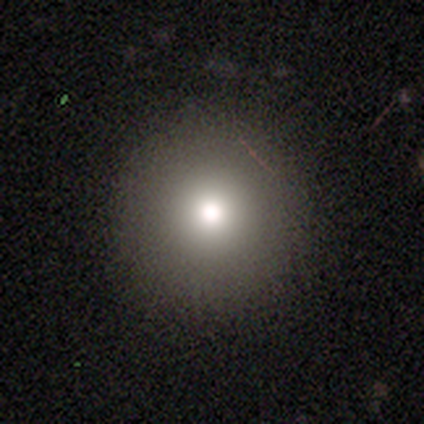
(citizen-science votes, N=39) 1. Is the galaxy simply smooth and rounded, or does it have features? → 74% smooth, 15% featured or disk, 10% star or artifact.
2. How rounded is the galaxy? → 100% round, 0% in between, 0% cigar-shaped.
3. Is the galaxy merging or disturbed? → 94% none, 3% minor disturbance, 3% merger, 0% major disturbance.